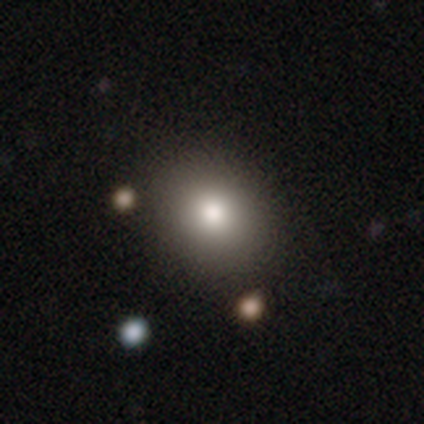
Smooth or featured? smooth (100%)
How rounded? round (50%, tied with in between)
Merging? none (83%)